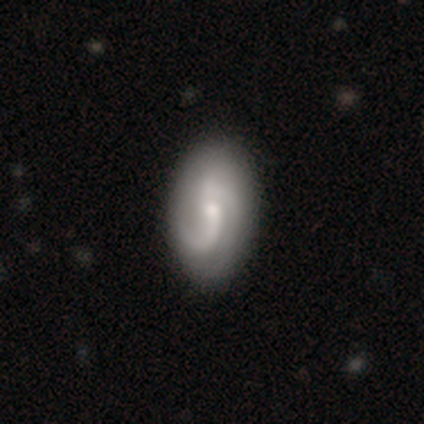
Smooth or featured? 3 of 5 (60%) said smooth. How rounded? 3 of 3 (100%) said in between. Merging? 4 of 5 (80%) said none.